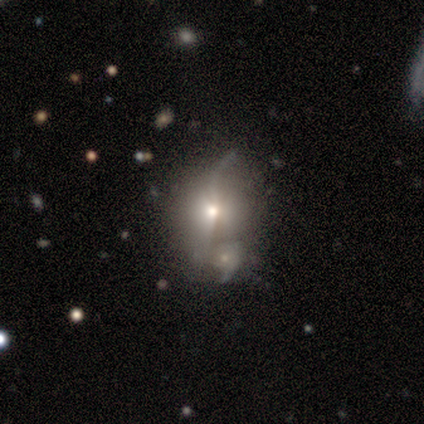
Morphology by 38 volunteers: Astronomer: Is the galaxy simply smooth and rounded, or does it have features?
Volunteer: featured or disk — 61%.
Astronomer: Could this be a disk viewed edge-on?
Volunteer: no — 78%.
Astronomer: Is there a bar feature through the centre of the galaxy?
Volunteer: no — 56% (runner-up: weak, 39%).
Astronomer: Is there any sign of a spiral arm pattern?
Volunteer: no — 61% (runner-up: yes, 39%).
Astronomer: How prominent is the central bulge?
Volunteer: small — 50%.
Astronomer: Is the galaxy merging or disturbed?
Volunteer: none — 36%, tied with merger at 36%.